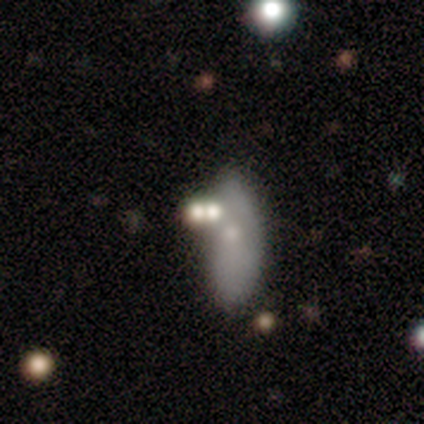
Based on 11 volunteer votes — smooth_or_featured: smooth (p=0.55) [alt: featured or disk p=0.36]
how_rounded: in between (p=1.00)
merging: minor disturbance (p=0.50) [alt: none p=0.30]